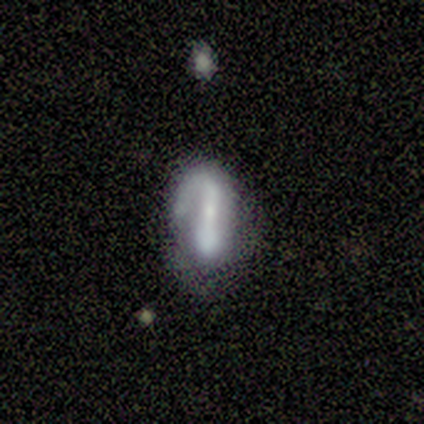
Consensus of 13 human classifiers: Overall: featured or disk (77%). Edge-on disk: no (90%). Bar: no (56%; strong 44%). Spiral arms: yes (78%). Spiral arm count: 1 (100%). Spiral winding: tight (57%; medium 29%). Bulge size: moderate (44%; small 33%). Merging: none (46%; minor disturbance 23%).